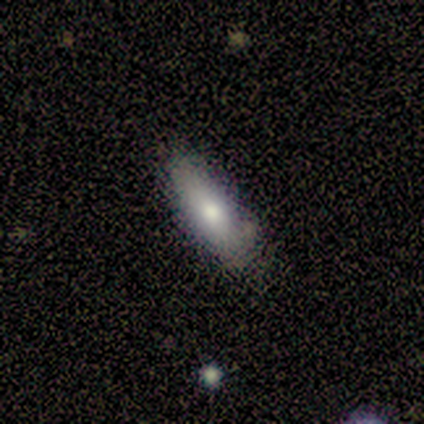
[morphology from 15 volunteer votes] Smooth or featured? smooth (87%)
How rounded? in between (62%)
Merging? none (57%)